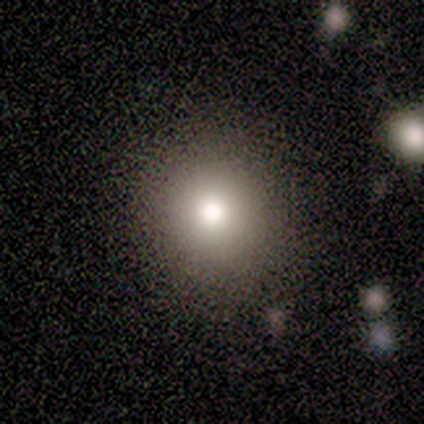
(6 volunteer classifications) Q: Smooth or featured?
A: smooth (83%); runner-up: star or artifact (17%)
Q: How rounded?
A: round (100%)
Q: Merging?
A: none (100%)